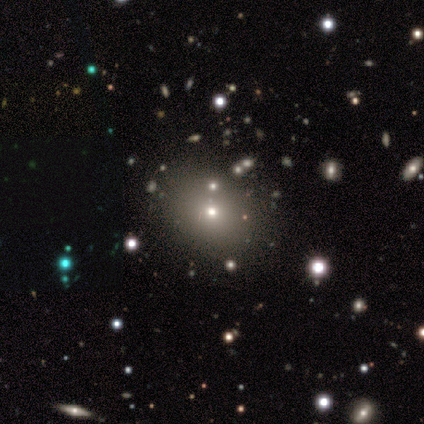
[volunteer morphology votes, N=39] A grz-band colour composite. It shows a smooth galaxy with no disk features (49%) that is round (74%). Merging: none (72%).